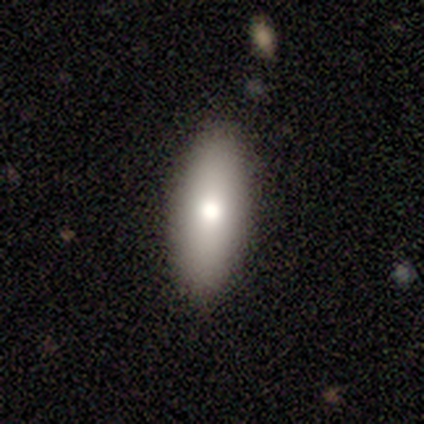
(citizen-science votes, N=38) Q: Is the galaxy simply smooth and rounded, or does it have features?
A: smooth — 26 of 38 (68%).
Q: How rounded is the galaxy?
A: in between — 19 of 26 (73%).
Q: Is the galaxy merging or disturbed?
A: none — 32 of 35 (91%).